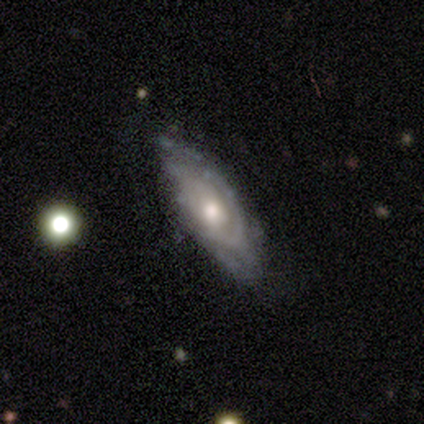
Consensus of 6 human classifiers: A featured or disk galaxy (67%) with no bar (75%), tight (67%) spiral arms (75%) and a moderate central bulge (100%). Merging: none (67%).